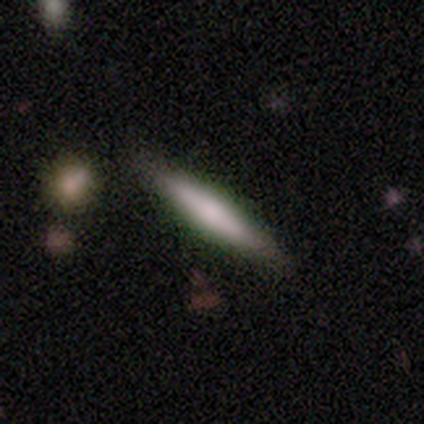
featured or disk 67%, smooth 33%, star or artifact 0%. Down the decision tree: edge-on disk — yes (100%); edge-on bulge — boxy (50%, tied with rounded); merging — minor disturbance (67%).